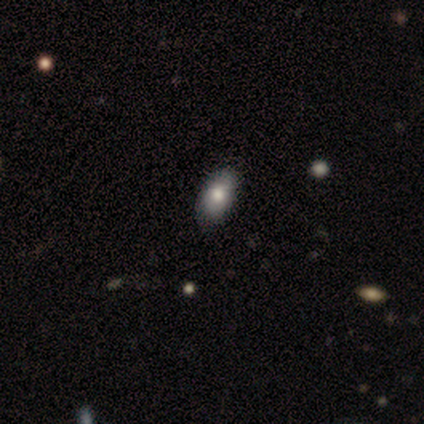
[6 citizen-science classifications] This is possibly a featured or disk galaxy (50%). It is clearly not viewed edge-on (100%). Bar: clearly no (100%). Spiral arm pattern: clearly no (100%). Central bulge: clearly large (100%). Merging: clearly none (80%).